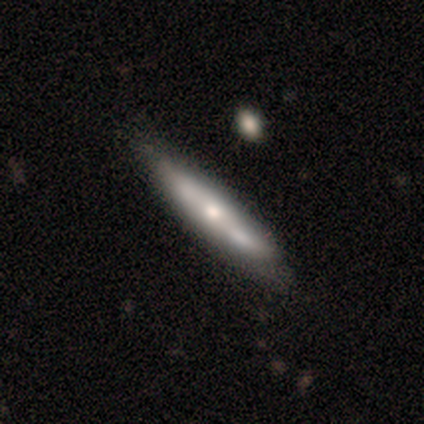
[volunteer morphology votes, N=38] Overall: featured or disk (68%; smooth 29%). Edge-on disk: yes (69%; no 31%). Edge-on bulge: rounded (83%). Merging: none (57%; merger 19%).